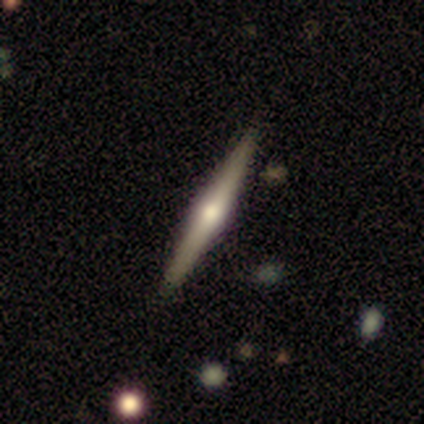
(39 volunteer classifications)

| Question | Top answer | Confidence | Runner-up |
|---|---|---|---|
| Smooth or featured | featured or disk | 90% | smooth (10%) |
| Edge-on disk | yes | 100% | — |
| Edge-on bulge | rounded | 94% | boxy (6%) |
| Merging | none | 87% | minor disturbance (13%) |